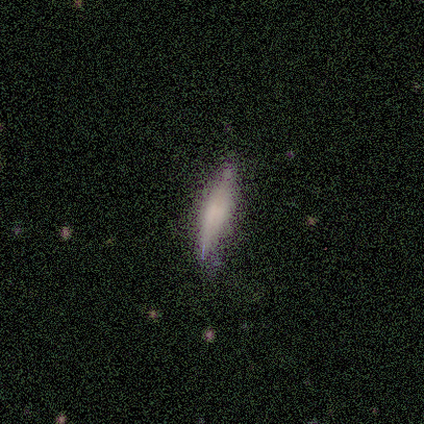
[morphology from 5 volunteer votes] Volunteers were most divided on "smooth or featured": featured or disk: 60%, smooth: 40%, star or artifact: 0%. More confident: edge-on disk — yes (100%); edge-on bulge — boxy (67%); merging — none (60%).